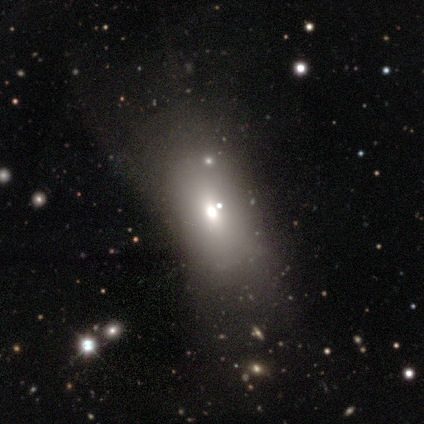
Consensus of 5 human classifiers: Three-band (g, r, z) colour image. It shows a smooth galaxy with no disk features (40%, tied with featured or disk) that is in between round and cigar-shaped (100%). Merging: none (50%).